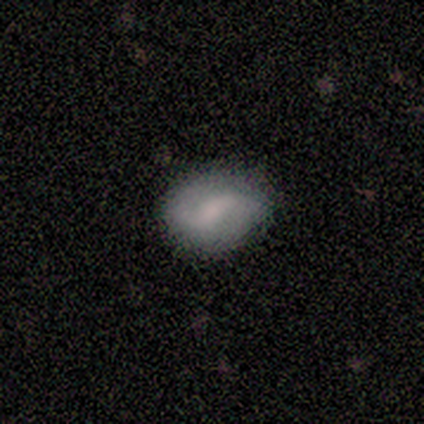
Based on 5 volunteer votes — Morphology: type=featured or disk (60%); edge-on=no (100%); bar=weak (100%); spiral arms=yes (100%); winding=loose (100%); arm count=2 (100%); bulge=moderate (33%, tied with small and none); merging=none (60%).